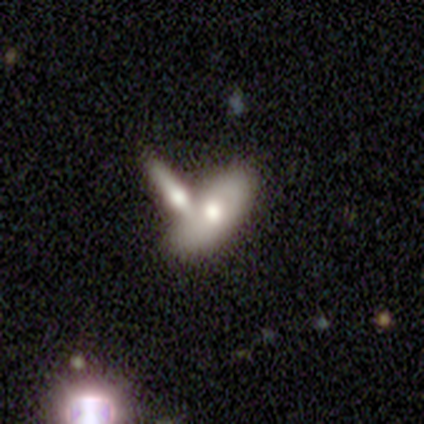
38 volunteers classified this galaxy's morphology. This appears to be a featured or disk galaxy (50%) with no bar (86%), no spiral arms (86%) and a moderate central bulge (71%). Merging: merger (54%).